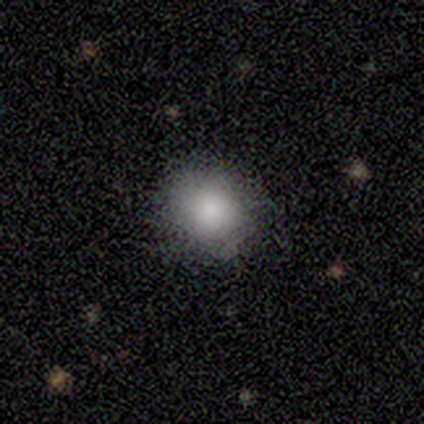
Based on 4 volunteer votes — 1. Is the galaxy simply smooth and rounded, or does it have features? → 75% smooth, 25% star or artifact, 0% featured or disk.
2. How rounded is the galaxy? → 67% round, 33% in between, 0% cigar-shaped.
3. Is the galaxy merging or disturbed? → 67% minor disturbance, 33% none, 0% major disturbance, 0% merger.